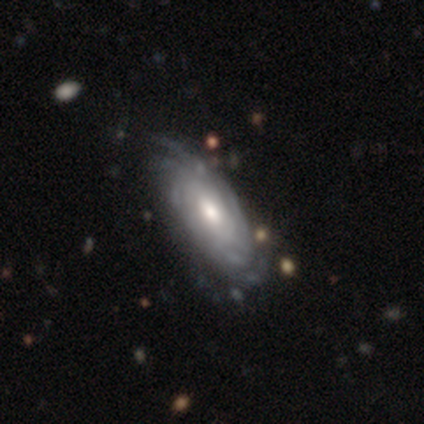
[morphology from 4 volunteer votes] Volunteers were most divided on "bulge size" (2-way tie): moderate: 50%, small: 50%, dominant: 0%, large: 0%, none: 0%; "merging" (2-way tie): none: 50%, minor disturbance: 50%, major disturbance: 0%, merger: 0%. More confident: smooth or featured — featured or disk (100%); edge-on disk — no (100%); bar — no (100%); spiral arms — yes (100%); spiral winding — tight (100%); spiral arm count — can't tell (50%).